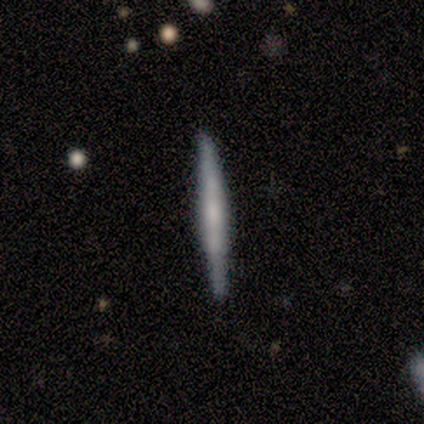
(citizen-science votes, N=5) Q: Smooth or featured?
A: smooth (40%); tied with: featured or disk (40%)
Q: How rounded?
A: cigar-shaped (100%)
Q: Merging?
A: none (100%)